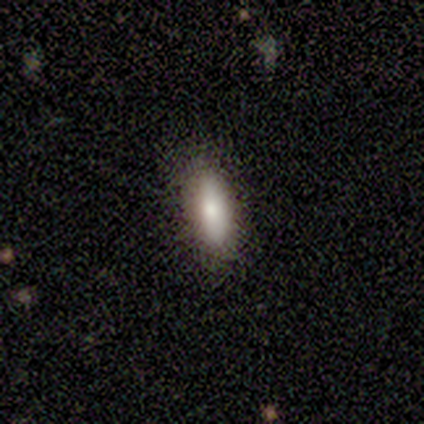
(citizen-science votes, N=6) smooth_or_featured: smooth (p=0.83) [alt: featured or disk p=0.17]
how_rounded: in between (p=0.60) [alt: cigar-shaped p=0.40]
merging: none (p=1.00)